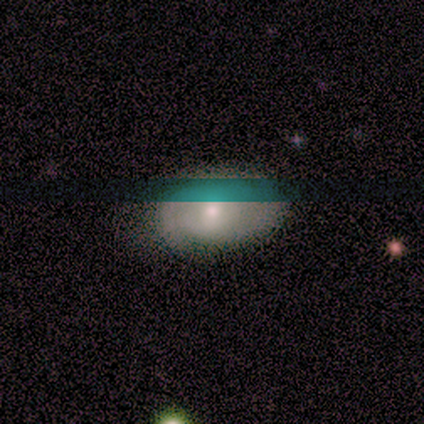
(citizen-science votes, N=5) Smooth or featured?
  - featured or disk: 60% *
  - smooth: 40%
  - star or artifact: 0%
Edge-on disk?
  - no: 100% *
  - yes: 0%
Bar?
  - no: 67% *
  - weak: 33%
  - strong: 0%
Spiral arms?
  - yes: 67% *
  - no: 33%
Spiral winding?
  - tight: 50% * (tied)
  - medium: 50% * (tied)
  - loose: 0%
Spiral arm count?
  - 2: 50% * (tied)
  - can't tell: 50% * (tied)
  - 1: 0%
  - 3: 0%
  - 4: 0%
  - more than 4: 0%
Bulge size?
  - small: 67% *
  - moderate: 33%
  - dominant: 0%
  - large: 0%
  - none: 0%
Merging?
  - none: 80% *
  - minor disturbance: 20%
  - major disturbance: 0%
  - merger: 0%